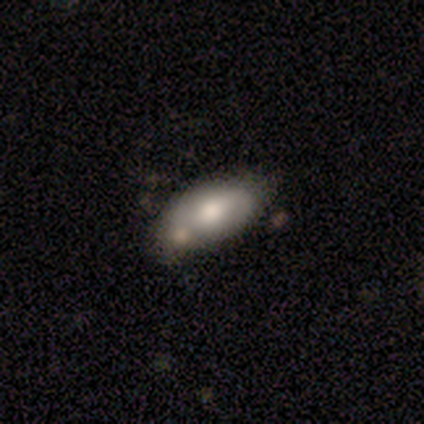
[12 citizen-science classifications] Volunteers were most divided on "smooth or featured": smooth: 67%, featured or disk: 33%, star or artifact: 0%. More confident: how rounded — in between (100%); merging — none (67%).